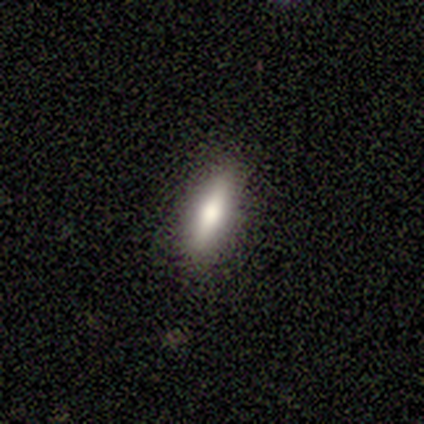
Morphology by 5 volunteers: This appears to be a featured or disk galaxy (40%, tied with star or artifact) viewed edge-on (100%) with a rounded central bulge (100%). Merging: none (100%).